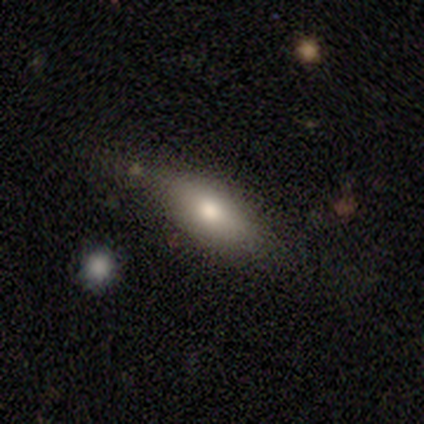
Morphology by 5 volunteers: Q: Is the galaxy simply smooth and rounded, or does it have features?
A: smooth — 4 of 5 (80%).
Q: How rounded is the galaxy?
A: in between — 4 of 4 (100%).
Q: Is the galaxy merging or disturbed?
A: none — 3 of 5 (60%).